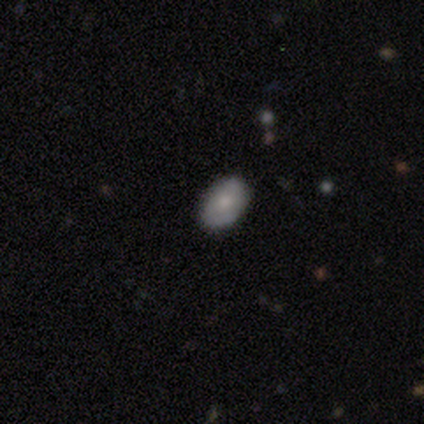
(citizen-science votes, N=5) Smooth or featured? 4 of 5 (80%) said smooth. How rounded? 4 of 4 (100%) said in between. Merging? 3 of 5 (60%) said none.